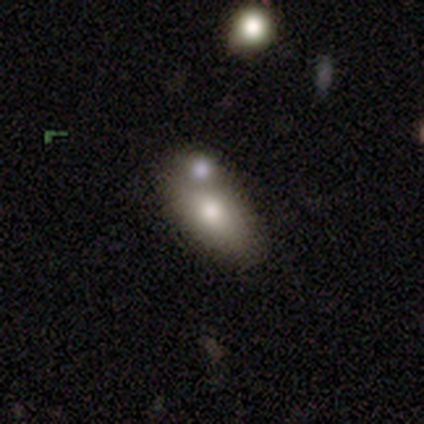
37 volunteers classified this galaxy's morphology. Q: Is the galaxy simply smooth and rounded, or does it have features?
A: smooth — 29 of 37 (78%).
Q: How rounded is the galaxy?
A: in between — 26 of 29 (90%).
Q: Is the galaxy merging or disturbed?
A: merger — 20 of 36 (56%).